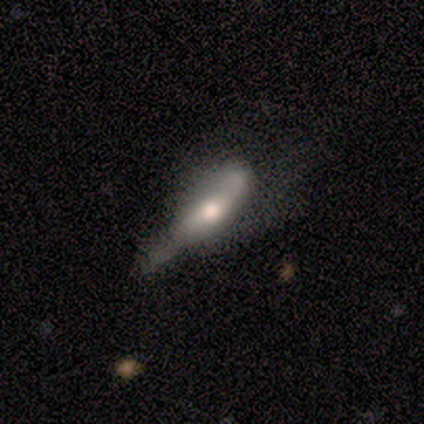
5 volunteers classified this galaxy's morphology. Overall: smooth (80%). How rounded: in between (50%, tied with cigar-shaped). Merging: none (60%; minor disturbance 20%).